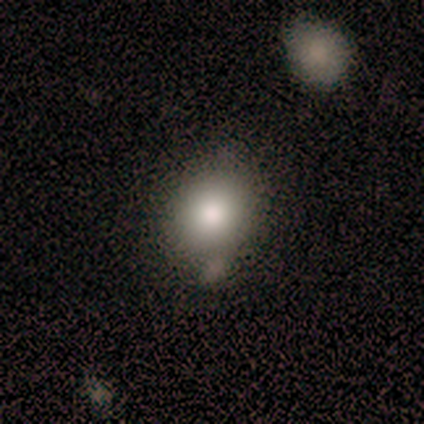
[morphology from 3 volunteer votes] Smooth or featured? smooth (67%)
How rounded? round (50%, tied with in between)
Merging? none (67%)